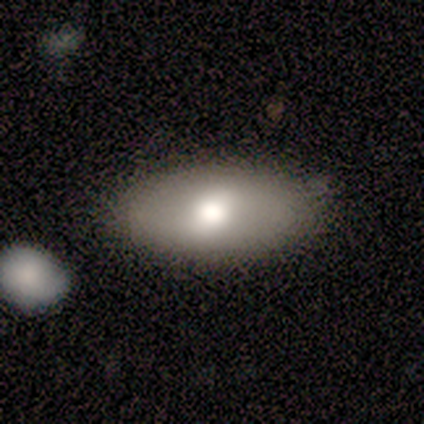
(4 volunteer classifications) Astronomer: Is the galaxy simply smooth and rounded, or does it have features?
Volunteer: featured or disk — 75%.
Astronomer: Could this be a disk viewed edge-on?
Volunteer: no — 67%.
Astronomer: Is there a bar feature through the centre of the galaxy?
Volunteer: weak — 100%.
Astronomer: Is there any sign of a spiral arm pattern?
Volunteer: yes — 50%, tied with no at 50%.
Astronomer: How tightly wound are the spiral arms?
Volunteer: loose — 100%.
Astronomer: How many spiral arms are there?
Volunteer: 2 — 100%.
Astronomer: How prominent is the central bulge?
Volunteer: large — 50%, tied with moderate at 50%.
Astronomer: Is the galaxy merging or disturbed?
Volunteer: none — 100%.